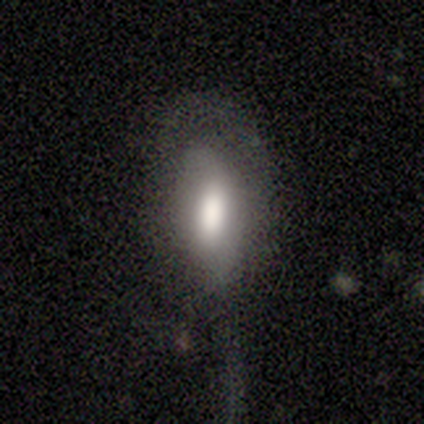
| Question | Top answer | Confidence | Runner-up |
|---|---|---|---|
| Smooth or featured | smooth | 80% | featured or disk (20%) |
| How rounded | in between | 100% | — |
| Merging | none | 60% | major disturbance (40%) |